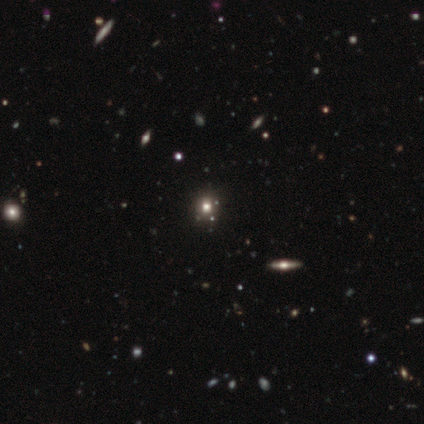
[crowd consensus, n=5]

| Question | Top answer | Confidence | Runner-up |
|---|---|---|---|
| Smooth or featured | smooth | 60% | star or artifact (40%) |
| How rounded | round | 100% | — |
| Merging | none | 100% | — |